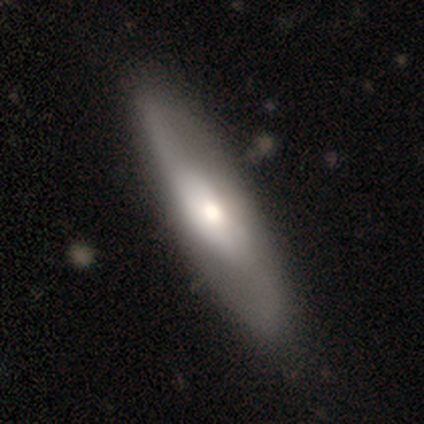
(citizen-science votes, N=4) A featured or disk galaxy (75%) with no bar (67%), 2 (100%) loose (67%) spiral arms (100%) and a moderate central bulge (67%). Merging: none (100%).